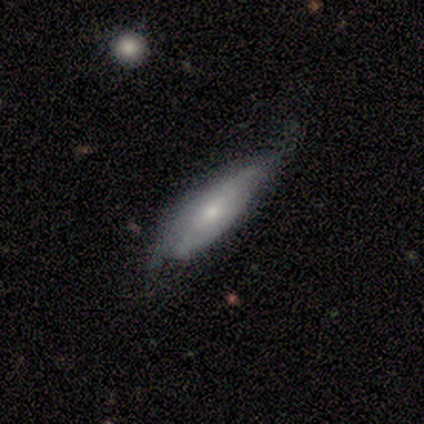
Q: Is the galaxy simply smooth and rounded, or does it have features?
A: smooth — 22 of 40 (55%).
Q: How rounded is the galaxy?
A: in between — 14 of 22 (64%).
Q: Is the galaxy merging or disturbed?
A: none — 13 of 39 (33%).